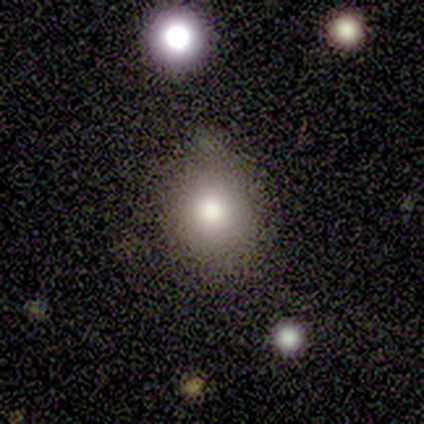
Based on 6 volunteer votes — Smooth or featured?
  - smooth: 100% *
  - featured or disk: 0%
  - star or artifact: 0%
How rounded?
  - round: 67% *
  - in between: 33%
  - cigar-shaped: 0%
Merging?
  - none: 83% *
  - minor disturbance: 17%
  - major disturbance: 0%
  - merger: 0%